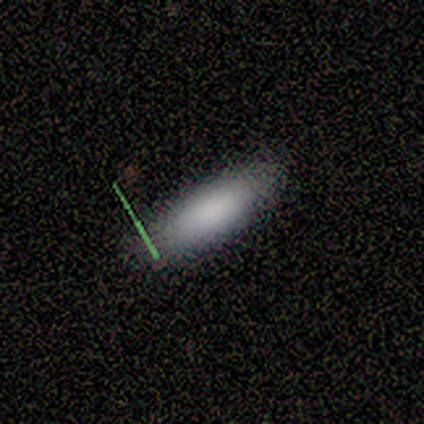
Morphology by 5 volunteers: Overall: smooth (60%; featured or disk 20%). How rounded: in between (67%; cigar-shaped 33%). Merging: none (100%).